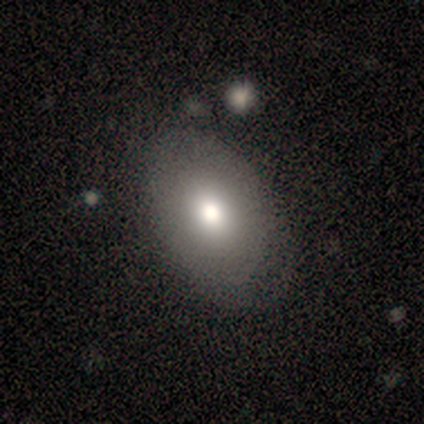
This is clearly a smooth galaxy (100%). How rounded: clearly in between (100%). Merging: clearly none (100%).